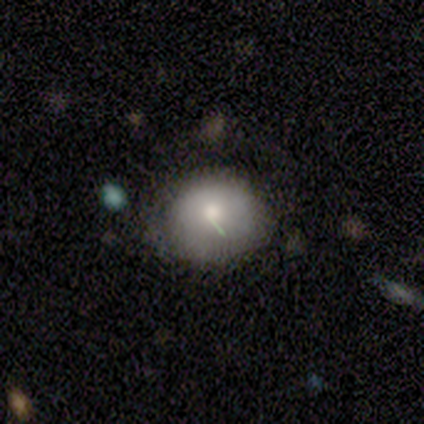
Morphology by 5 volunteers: Volunteers were most divided on "smooth or featured" (2-way tie): smooth: 40%, featured or disk: 40%, star or artifact: 20%. More confident: how rounded — round (100%); merging — none (75%).